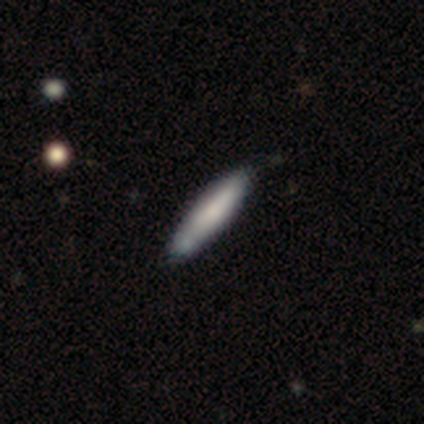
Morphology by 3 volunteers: smooth 67%, featured or disk 33%, star or artifact 0%. Down the decision tree: how rounded — cigar-shaped (100%); merging — none (33%, tied with minor disturbance and major disturbance).